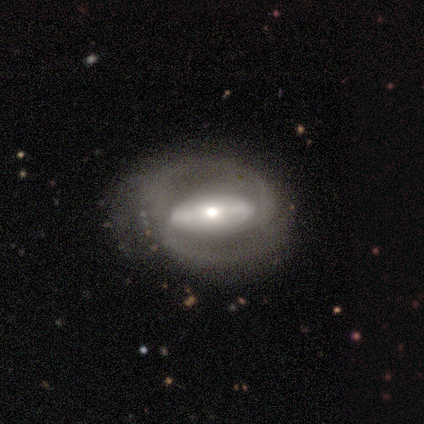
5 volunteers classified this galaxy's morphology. smooth-or-featured: featured or disk: 100% | smooth: 0% | star or artifact: 0%
  disk-edge-on: no: 80% | yes: 20%
    bar: strong: 100% | weak: 0% | no: 0%
    has-spiral-arms: yes: 75% | no: 25%
      spiral-winding: medium: 67% | tight: 33% | loose: 0%
      spiral-arm-count: 2: 33% (tied) | 3: 33% (tied) | can't tell: 33% (tied) | 1: 0% | 4: 0% | more than 4: 0%
    bulge-size: large: 50% (tied) | moderate: 50% (tied) | dominant: 0% | small: 0% | none: 0%
  merging: none: 80% | major disturbance: 20% | minor disturbance: 0% | merger: 0%